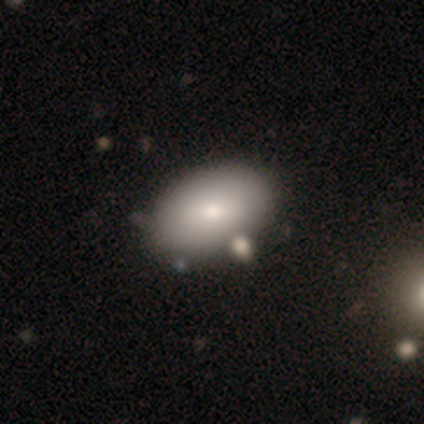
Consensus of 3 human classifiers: smooth 100%, featured or disk 0%, star or artifact 0%. Down the decision tree: how rounded — in between (67%); merging — none (67%).